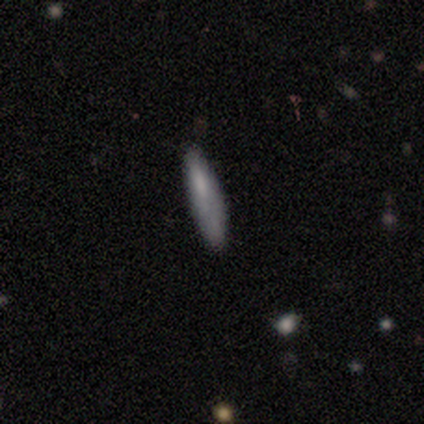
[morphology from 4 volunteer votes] smooth 75%, featured or disk 25%, star or artifact 0%. Down the decision tree: how rounded — cigar-shaped (67%); merging — none (50%, tied with minor disturbance).